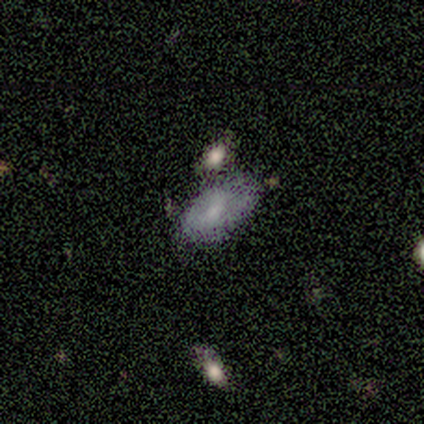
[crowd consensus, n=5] This appears to be a smooth galaxy with no disk features (100%) that is in between round and cigar-shaped (100%). Merging: none (40%).